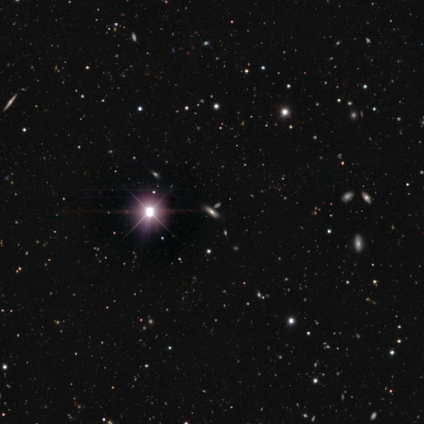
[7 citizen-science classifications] Smooth or featured? star or artifact (57%)